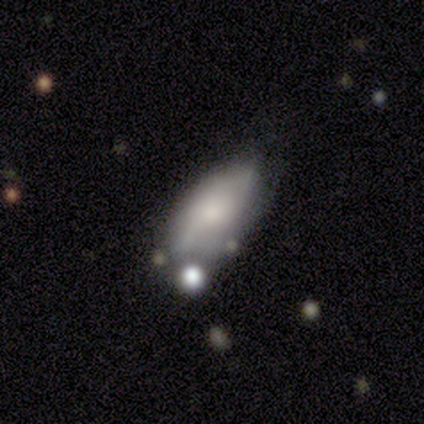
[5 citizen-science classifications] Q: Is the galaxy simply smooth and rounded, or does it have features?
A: featured or disk — 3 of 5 (60%).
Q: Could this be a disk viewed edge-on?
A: no — 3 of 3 (100%).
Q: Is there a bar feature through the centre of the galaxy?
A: no — 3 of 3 (100%).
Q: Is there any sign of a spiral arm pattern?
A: no — 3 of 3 (100%).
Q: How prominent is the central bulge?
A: small — 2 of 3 (67%).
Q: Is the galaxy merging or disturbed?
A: minor disturbance — 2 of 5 (40%).